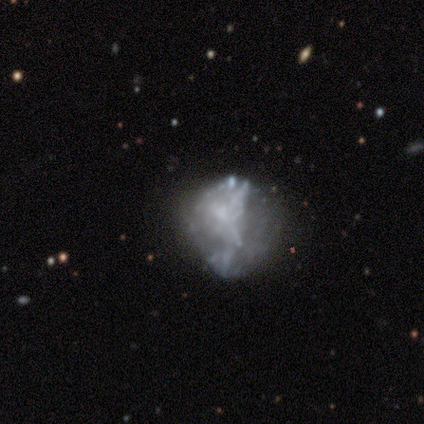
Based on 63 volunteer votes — Morphology: type=featured or disk (65%); edge-on=no (100%); bar=no (80%); spiral arms=no (85%); bulge=none (73%); merging=none (46%).